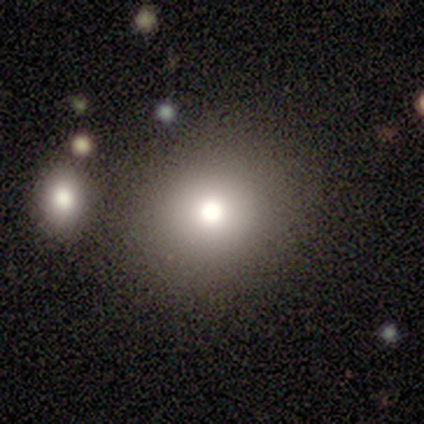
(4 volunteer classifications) A smooth galaxy with no disk features (75%) that is round (100%). Merging: none (100%).